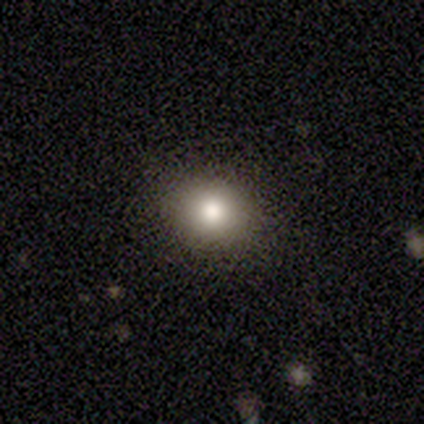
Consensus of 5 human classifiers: A smooth galaxy with no disk features (100%) that is in between round and cigar-shaped (60%).

Vote fractions:
- Smooth or featured? smooth: 100% / featured or disk: 0% / star or artifact: 0%
- How rounded? in between: 60% / round: 40% / cigar-shaped: 0%
- Merging? none: 100% / minor disturbance: 0% / major disturbance: 0% / merger: 0%